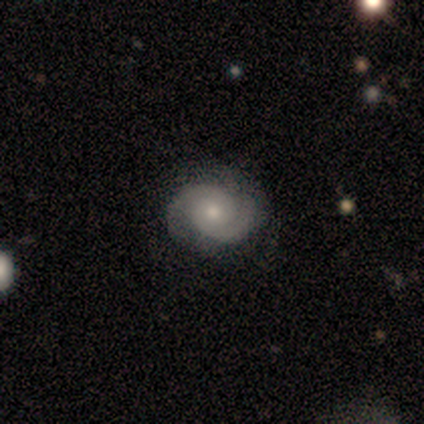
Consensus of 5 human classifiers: This appears to be a featured or disk galaxy (80%) with no bar (100%), 2 (100%) tight (50%, tied with medium) spiral arms (100%) and a moderate central bulge (75%). Merging: none (100%).